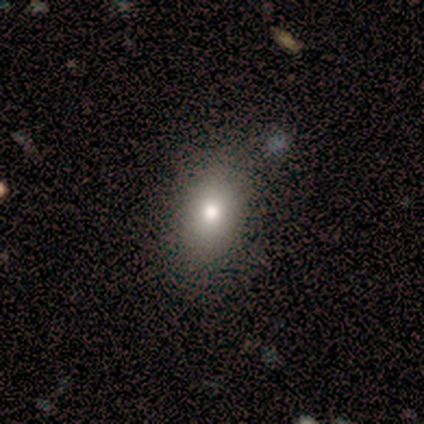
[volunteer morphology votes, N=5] This is clearly a smooth galaxy (100%). How rounded: clearly in between (100%). Merging: marginally none (40%, tied with minor disturbance).